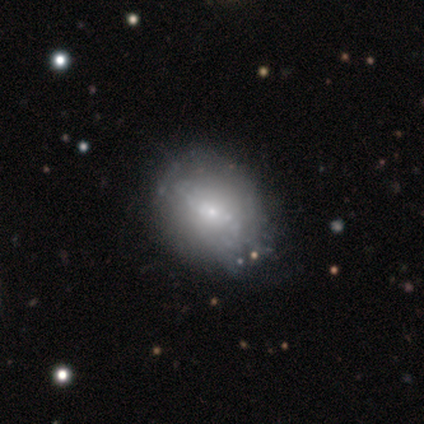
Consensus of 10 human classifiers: featured or disk 60%, smooth 40%, star or artifact 0%. Down the decision tree: edge-on disk — no (100%); bar — no (83%); spiral arms — no (67%); bulge size — large (50%); merging — none (70%).